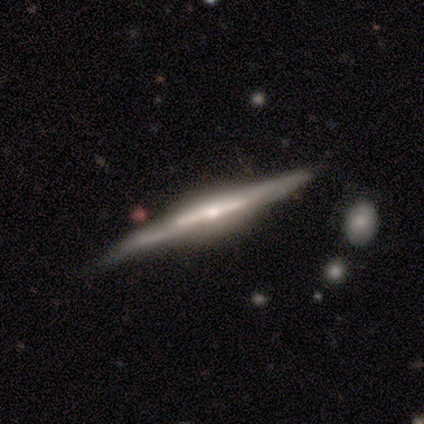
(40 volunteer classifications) Smooth or featured? 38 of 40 (95%) said featured or disk. Edge-on disk? 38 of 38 (100%) said yes. Edge-on bulge? 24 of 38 (63%) said rounded. Merging? 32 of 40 (80%) said none.